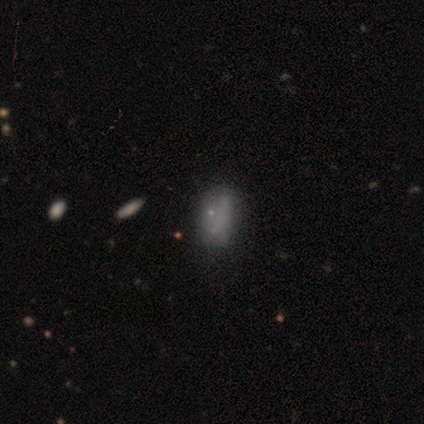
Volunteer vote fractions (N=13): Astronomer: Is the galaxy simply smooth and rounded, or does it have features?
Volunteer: smooth — 46% (runner-up: featured or disk, 38%).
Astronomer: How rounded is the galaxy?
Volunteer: in between — 100%.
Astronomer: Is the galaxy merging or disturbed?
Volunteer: none — 36%, tied with minor disturbance at 36%.